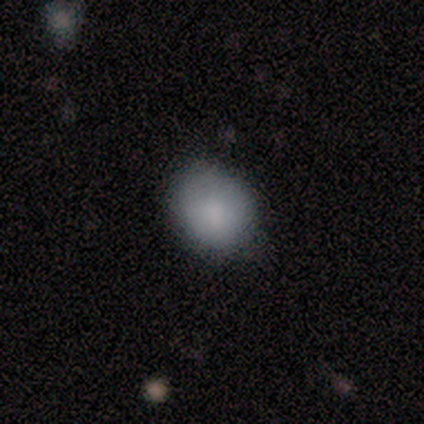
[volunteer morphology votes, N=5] type=smooth (100%); roundness=round (60%); merging=minor disturbance (60%).